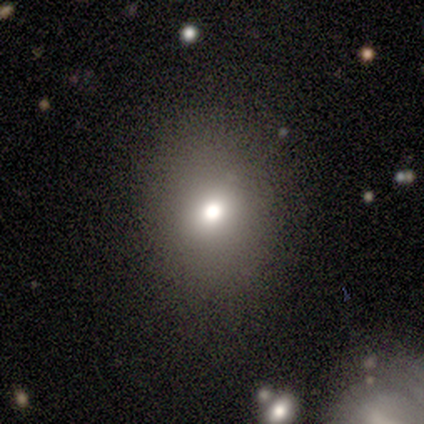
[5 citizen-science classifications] Q: Smooth or featured?
A: smooth (60%); runner-up: featured or disk (20%)
Q: How rounded?
A: round (100%)
Q: Merging?
A: none (100%)